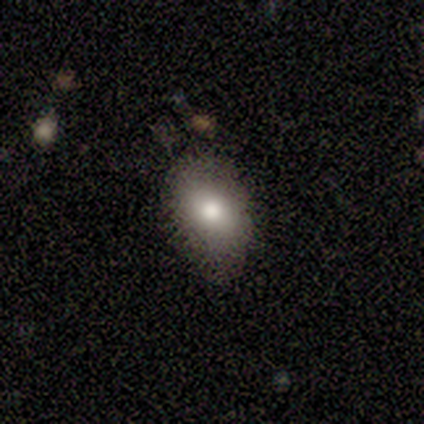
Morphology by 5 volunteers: smooth 80%, featured or disk 20%, star or artifact 0%. Down the decision tree: how rounded — in between (100%); merging — none (60%).